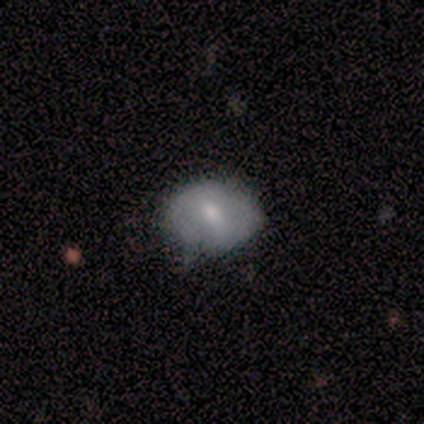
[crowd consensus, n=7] This is possibly a smooth galaxy (57%). How rounded: likely round (75%). Merging: likely none (71%).